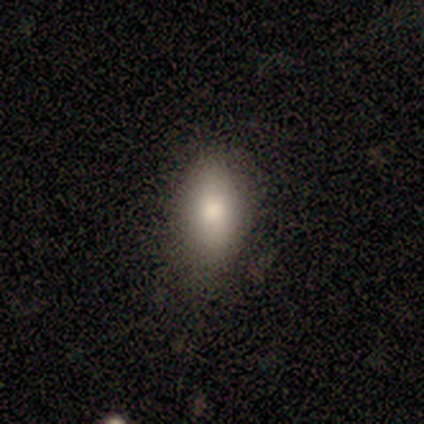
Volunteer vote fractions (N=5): smooth 80%, featured or disk 20%, star or artifact 0%. Down the decision tree: how rounded — in between (100%); merging — none (100%).